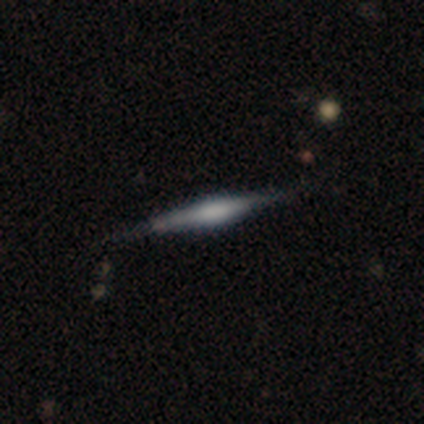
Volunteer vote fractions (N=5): Volunteers were most divided on "edge-on bulge" (2-way tie): boxy: 50%, rounded: 50%, none: 0%. More confident: edge-on disk — yes (100%); smooth or featured — featured or disk (80%); merging — none (80%).